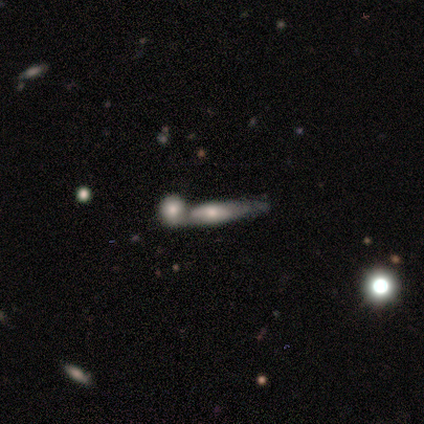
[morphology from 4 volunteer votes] Smooth or featured: smooth — 50% (tied with featured or disk — 50%)
How rounded: cigar-shaped — 100%
Merging: merger — 75% (none — 25%)